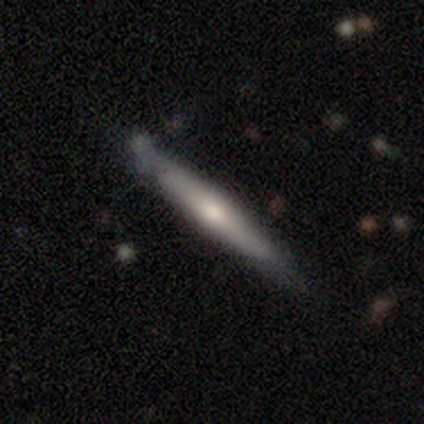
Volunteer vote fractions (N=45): Smooth or featured? 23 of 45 (51%) said smooth. How rounded? 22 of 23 (96%) said cigar-shaped. Merging? 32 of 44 (73%) said none.